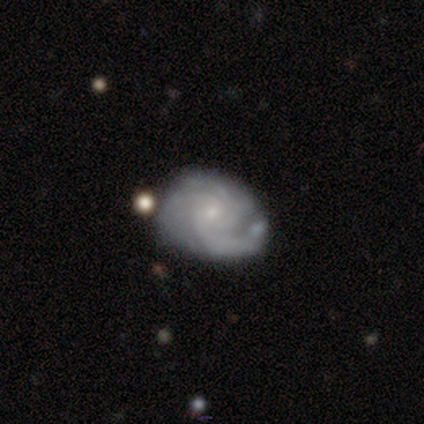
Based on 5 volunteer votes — Smooth or featured?
  - featured or disk: 100% *
  - smooth: 0%
  - star or artifact: 0%
Edge-on disk?
  - no: 100% *
  - yes: 0%
Bar?
  - no: 60% *
  - weak: 40%
  - strong: 0%
Spiral arms?
  - yes: 100% *
  - no: 0%
Spiral winding?
  - tight: 80% *
  - medium: 20%
  - loose: 0%
Spiral arm count?
  - 2: 40% * (tied)
  - can't tell: 40% * (tied)
  - 1: 20%
  - 3: 0%
  - 4: 0%
  - more than 4: 0%
Bulge size?
  - small: 100% *
  - dominant: 0%
  - large: 0%
  - moderate: 0%
  - none: 0%
Merging?
  - none: 80% *
  - minor disturbance: 20%
  - major disturbance: 0%
  - merger: 0%